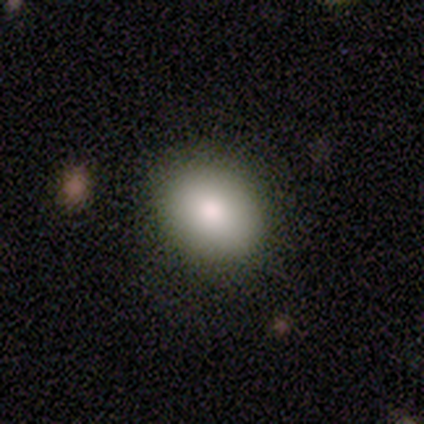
Q: Smooth or featured?
A: smooth (85%); runner-up: featured or disk (8%)
Q: How rounded?
A: in between (52%); runner-up: round (45%)
Q: Merging?
A: none (78%); runner-up: major disturbance (14%)